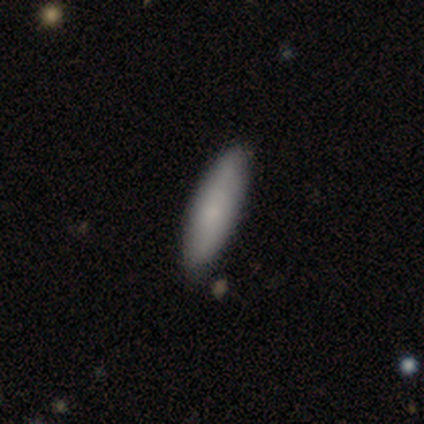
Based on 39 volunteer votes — Smooth or featured? 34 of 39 (87%) said smooth. How rounded? 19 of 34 (56%) said cigar-shaped. Merging? 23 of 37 (62%) said none.